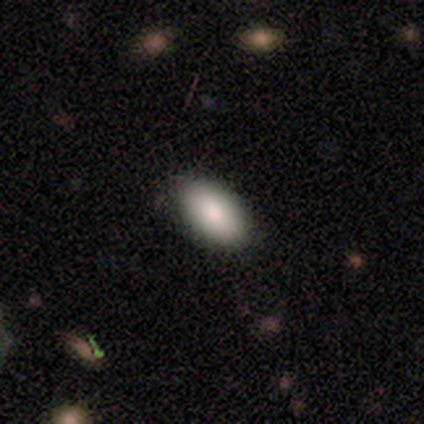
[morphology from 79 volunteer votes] A smooth galaxy with no disk features (90%) that is in between round and cigar-shaped (99%). Merging: none (53%).